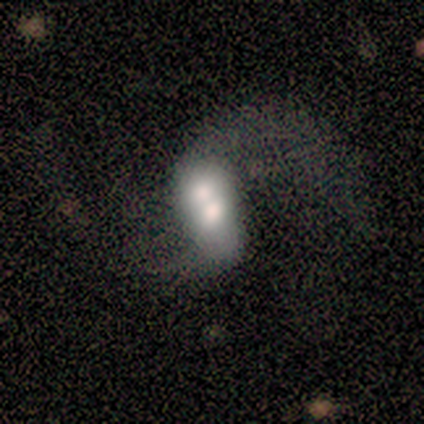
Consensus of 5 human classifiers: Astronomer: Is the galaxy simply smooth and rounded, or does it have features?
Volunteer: featured or disk — 60% (runner-up: smooth, 40%).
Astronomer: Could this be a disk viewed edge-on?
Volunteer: no — 100%.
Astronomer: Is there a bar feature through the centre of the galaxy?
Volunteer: no — 67%.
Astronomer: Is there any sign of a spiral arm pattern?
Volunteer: no — 67%.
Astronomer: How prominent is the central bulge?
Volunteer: dominant — 33%, tied with large and moderate at 33%.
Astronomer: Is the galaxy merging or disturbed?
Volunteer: merger — 80%.